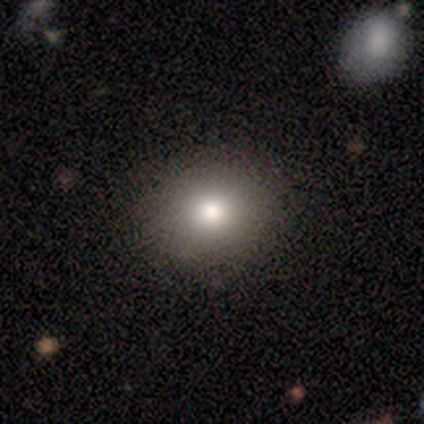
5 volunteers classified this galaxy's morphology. Smooth or featured: smooth — 60% (featured or disk — 20%)
How rounded: round — 67% (in between — 33%)
Merging: none — 100%